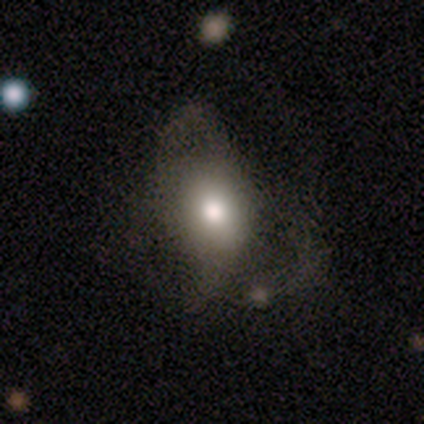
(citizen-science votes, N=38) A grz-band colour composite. It shows a smooth galaxy with no disk features (63%) that is in between round and cigar-shaped (83%). Merging: major disturbance (54%).